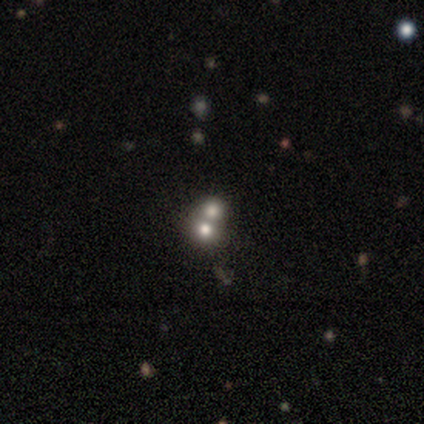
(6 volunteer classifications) smooth_or_featured: featured or disk (p=0.50) [alt: smooth p=0.33]
disk_edge_on: no (p=1.00)
bar: no (p=1.00)
has_spiral_arms: no (p=1.00)
bulge_size: dominant (p=0.33) [tied with: large p=0.33, moderate p=0.33]
merging: merger (p=0.80) [alt: none p=0.20]